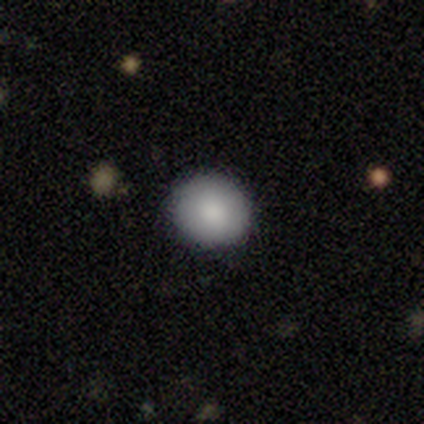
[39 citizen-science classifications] This appears to be a smooth galaxy with no disk features (87%) that is round (91%). Merging: none (95%).